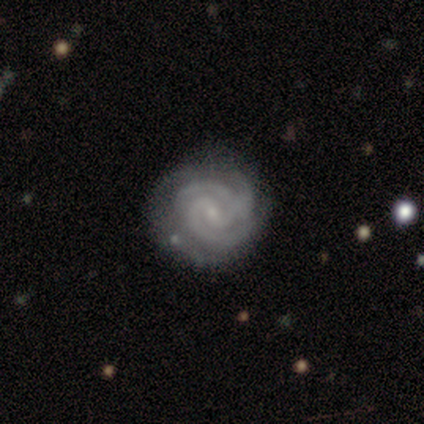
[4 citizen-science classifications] smooth-or-featured: featured or disk: 100% | smooth: 0% | star or artifact: 0%
  disk-edge-on: no: 100% | yes: 0%
    bar: weak: 50% | strong: 25% | no: 25%
    has-spiral-arms: yes: 100% | no: 0%
      spiral-winding: tight: 75% | medium: 25% | loose: 0%
      spiral-arm-count: 3: 75% | 2: 25% | 1: 0% | 4: 0% | more than 4: 0% | can't tell: 0%
    bulge-size: small: 75% | none: 25% | dominant: 0% | large: 0% | moderate: 0%
  merging: none: 75% | minor disturbance: 25% | major disturbance: 0% | merger: 0%